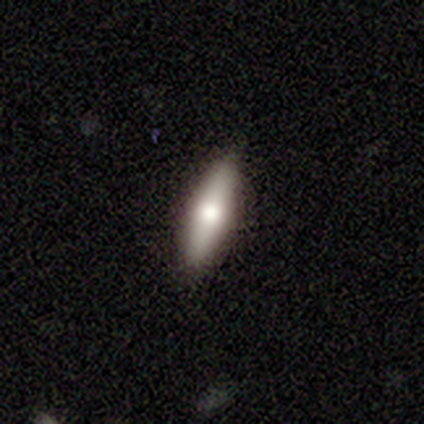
Volunteers were most divided on "how rounded": cigar-shaped: 60%, in between: 40%, round: 0%. More confident: smooth or featured — smooth (83%); merging — none (75%).